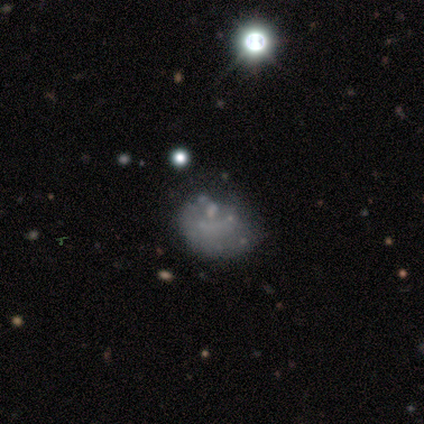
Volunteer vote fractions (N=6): Overall: smooth (67%; star or artifact 33%). How rounded: round (75%). Merging: minor disturbance (75%).